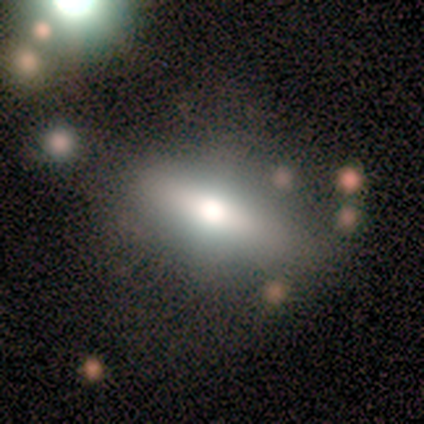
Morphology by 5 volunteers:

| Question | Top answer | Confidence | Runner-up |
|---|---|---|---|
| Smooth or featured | featured or disk | 60% | smooth (40%) |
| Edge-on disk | yes | 100% | — |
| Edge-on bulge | rounded | 67% | boxy (33%) |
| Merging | none | 80% | merger (20%) |